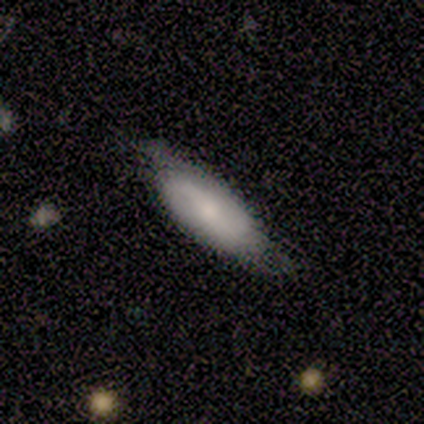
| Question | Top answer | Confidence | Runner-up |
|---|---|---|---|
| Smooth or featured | smooth | 66% | featured or disk (26%) |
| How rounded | in between | 72% | cigar-shaped (28%) |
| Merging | none | 54% | minor disturbance (37%) |